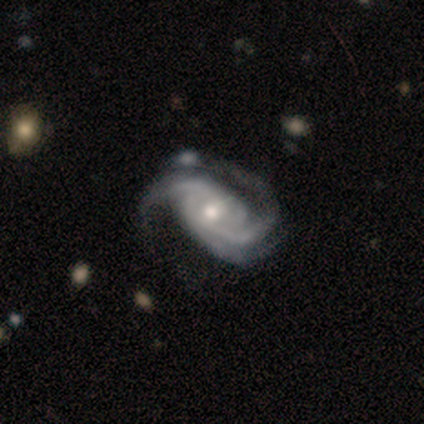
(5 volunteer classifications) This is likely a featured or disk galaxy (60%). It is clearly not viewed edge-on (100%). Bar: likely weak (67%). Spiral arm pattern: clearly yes (100%). Spiral arm count: likely 3 (67%). Spiral winding: likely tight (67%). Central bulge: likely small (67%). Merging: possibly minor disturbance (50%).